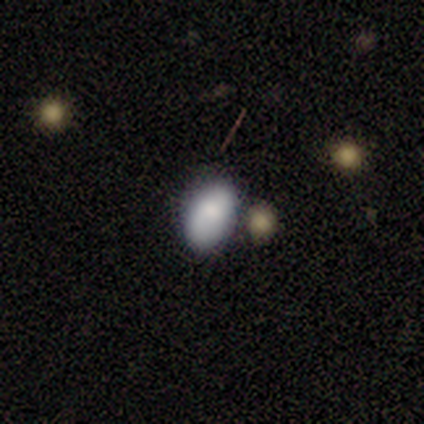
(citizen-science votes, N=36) Volunteers were most divided on "merging": none: 56%, minor disturbance: 28%, merger: 16%, major disturbance: 0%. More confident: how rounded — in between (89%); smooth or featured — smooth (75%).